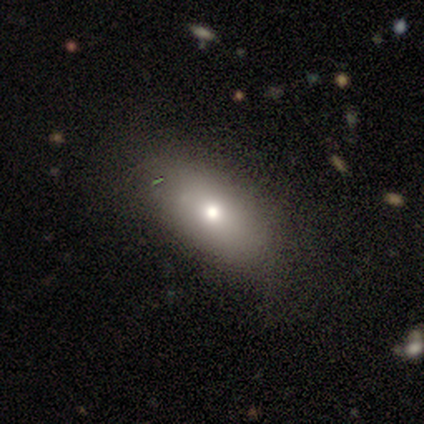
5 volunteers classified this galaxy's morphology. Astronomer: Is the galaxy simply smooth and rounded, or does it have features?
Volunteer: smooth — 100%.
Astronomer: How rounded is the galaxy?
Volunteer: in between — 100%.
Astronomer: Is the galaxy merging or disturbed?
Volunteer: none — 80%.